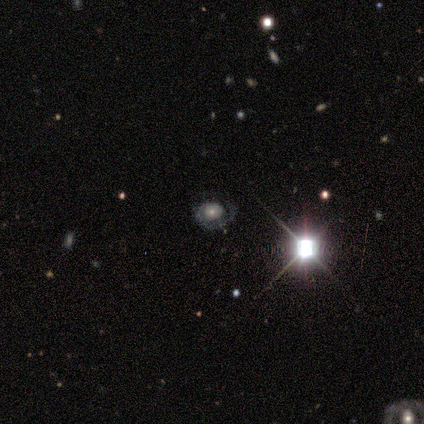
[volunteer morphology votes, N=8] Q: Smooth or featured?
A: featured or disk (88%); runner-up: star or artifact (12%)
Q: Edge-on disk?
A: no (100%)
Q: Bar?
A: no (86%); runner-up: strong (14%)
Q: Spiral arms?
A: yes (100%)
Q: Spiral winding?
A: tight (57%); runner-up: medium (43%)
Q: Spiral arm count?
A: 1 (86%); runner-up: can't tell (14%)
Q: Bulge size?
A: moderate (43%); tied with: small (43%)
Q: Merging?
A: none (86%); runner-up: merger (14%)